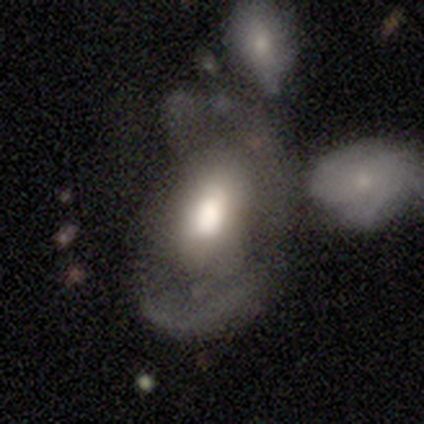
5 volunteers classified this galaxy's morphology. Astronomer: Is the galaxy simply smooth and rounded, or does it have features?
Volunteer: featured or disk — 60% (runner-up: smooth, 40%).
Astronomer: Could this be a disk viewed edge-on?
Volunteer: no — 100%.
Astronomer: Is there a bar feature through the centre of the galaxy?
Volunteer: no — 67%.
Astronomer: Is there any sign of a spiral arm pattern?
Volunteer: no — 100%.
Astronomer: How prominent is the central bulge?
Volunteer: large — 67%.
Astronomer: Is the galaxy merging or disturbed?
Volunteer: major disturbance — 60% (runner-up: merger, 40%).